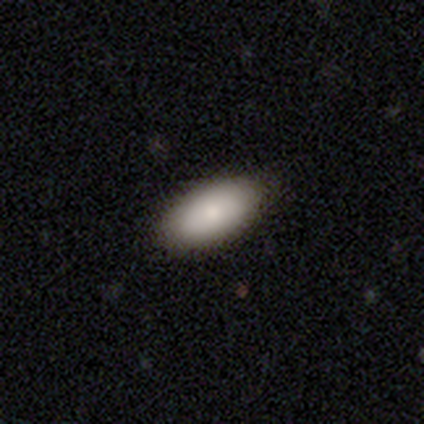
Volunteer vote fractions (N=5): Smooth or featured? smooth (80%)
How rounded? in between (100%)
Merging? none (80%)